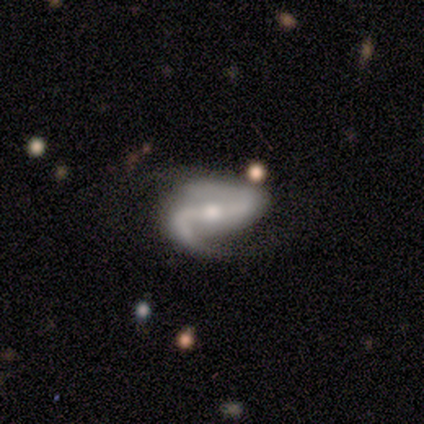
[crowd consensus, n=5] Smooth or featured? featured or disk (100%)
Edge-on disk? no (100%)
Bar? strong (60%)
Spiral arms? yes (100%)
Spiral winding? medium (100%)
Spiral arm count? 2 (100%)
Bulge size? moderate (100%)
Merging? minor disturbance (60%)